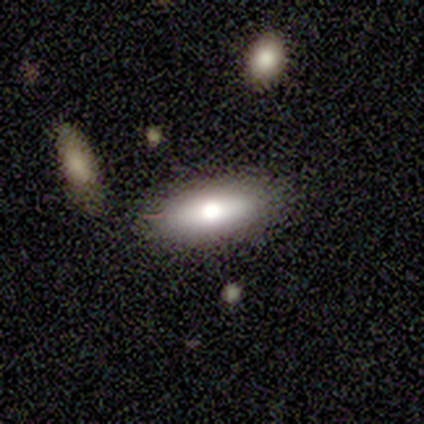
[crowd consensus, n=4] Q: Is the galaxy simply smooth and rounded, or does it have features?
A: smooth — 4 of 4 (100%).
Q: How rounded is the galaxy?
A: in between — 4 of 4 (100%).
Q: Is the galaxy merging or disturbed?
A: none — 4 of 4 (100%).